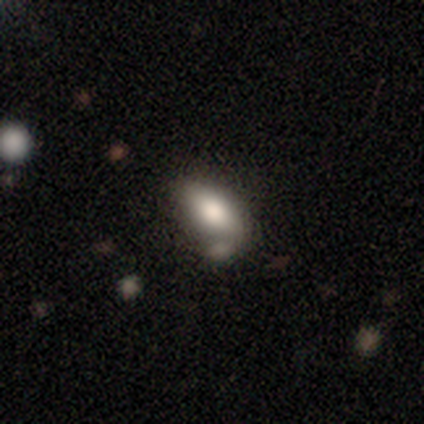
This appears to be a smooth galaxy with no disk features (71%) that is in between round and cigar-shaped (97%). Merging: minor disturbance (41%).